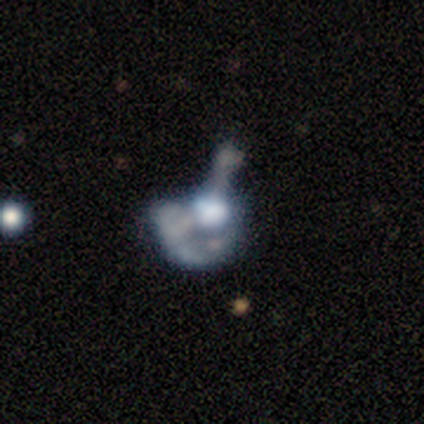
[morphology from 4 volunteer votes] A star or artifact, not a galaxy (50%).

Vote fractions:
- Smooth or featured? star or artifact: 50% / smooth: 25% / featured or disk: 25%